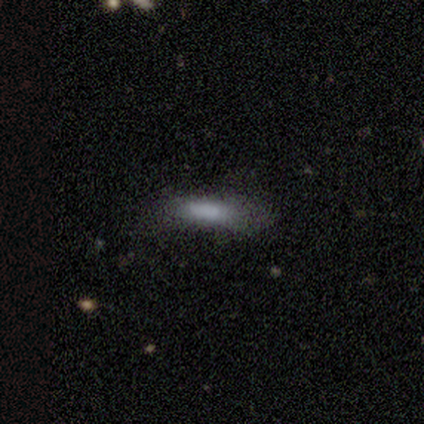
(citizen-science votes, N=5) This is clearly a smooth galaxy (100%). How rounded: likely cigar-shaped (60%). Merging: likely minor disturbance (60%).